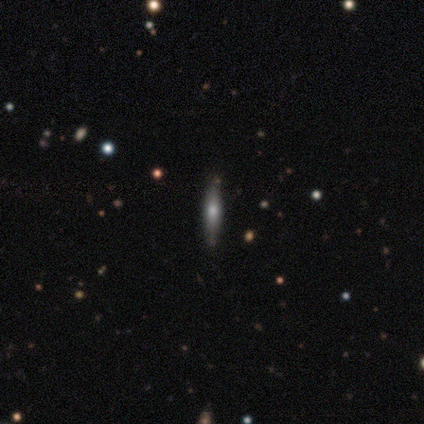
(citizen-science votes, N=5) smooth-or-featured: smooth: 60% | featured or disk: 40% | star or artifact: 0%
  how-rounded: cigar-shaped: 100% | round: 0% | in between: 0%
  merging: none: 80% | merger: 20% | minor disturbance: 0% | major disturbance: 0%